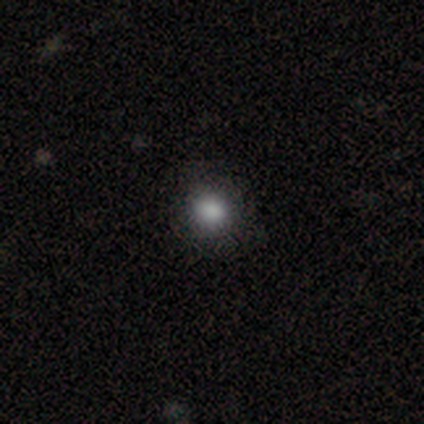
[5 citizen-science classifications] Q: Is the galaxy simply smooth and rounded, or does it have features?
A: smooth — 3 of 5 (60%).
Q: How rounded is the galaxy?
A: in between — 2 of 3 (67%).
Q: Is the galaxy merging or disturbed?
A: none — 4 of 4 (100%).